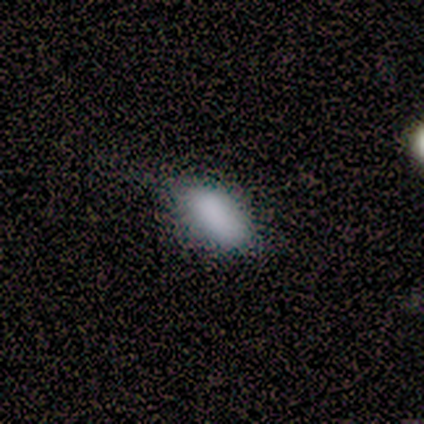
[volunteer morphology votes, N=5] Smooth or featured?
  - smooth: 100% *
  - featured or disk: 0%
  - star or artifact: 0%
How rounded?
  - in between: 100% *
  - round: 0%
  - cigar-shaped: 0%
Merging?
  - minor disturbance: 100% *
  - none: 0%
  - major disturbance: 0%
  - merger: 0%